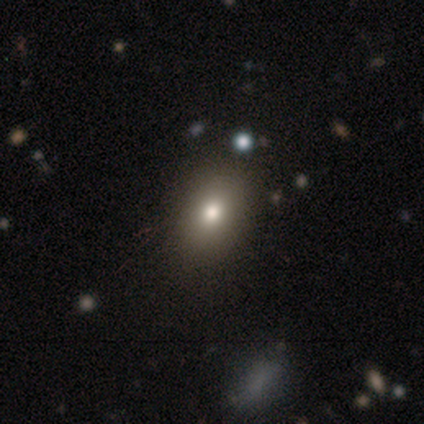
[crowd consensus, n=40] A smooth galaxy with no disk features (85%) that is in between round and cigar-shaped (68%). Merging: none (61%).